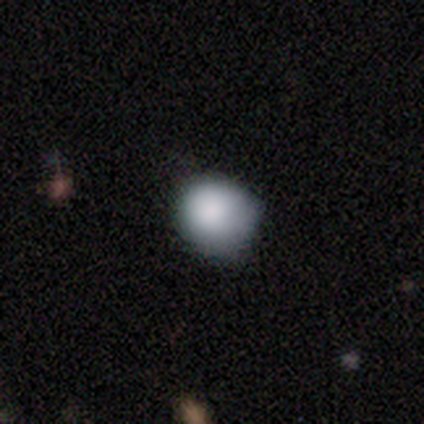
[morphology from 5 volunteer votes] A smooth galaxy with no disk features (100%) that is round (100%).

Vote fractions:
- Smooth or featured? smooth: 100% / featured or disk: 0% / star or artifact: 0%
- How rounded? round: 100% / in between: 0% / cigar-shaped: 0%
- Merging? none: 40% (tied) / minor disturbance: 40% (tied) / major disturbance: 20% / merger: 0%